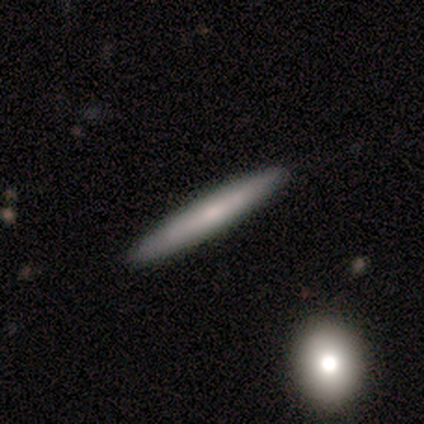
Volunteers were most divided on "smooth or featured" (2-way tie): smooth: 48%, featured or disk: 48%, star or artifact: 5%. More confident: how rounded — cigar-shaped (100%); merging — none (82%).